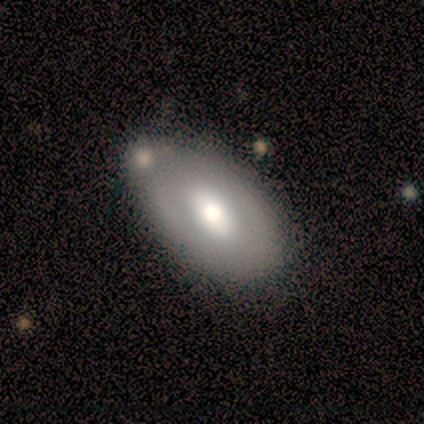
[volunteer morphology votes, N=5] Smooth or featured?
  - smooth: 60% *
  - featured or disk: 40%
  - star or artifact: 0%
How rounded?
  - in between: 100% *
  - round: 0%
  - cigar-shaped: 0%
Merging?
  - none: 80% *
  - minor disturbance: 20%
  - major disturbance: 0%
  - merger: 0%